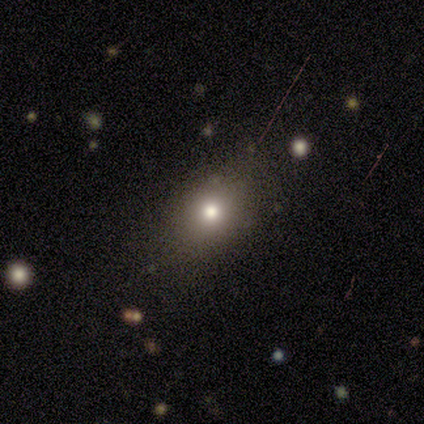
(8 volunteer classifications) smooth 62%, featured or disk 25%, star or artifact 12%. Down the decision tree: how rounded — in between (80%); merging — none (71%).